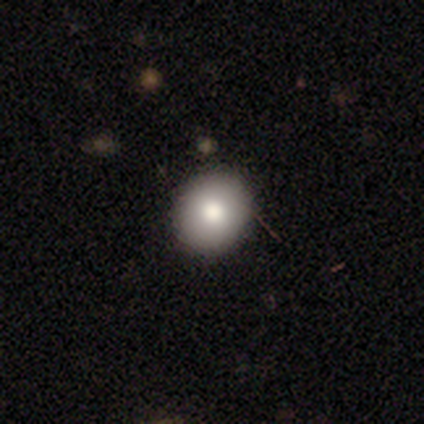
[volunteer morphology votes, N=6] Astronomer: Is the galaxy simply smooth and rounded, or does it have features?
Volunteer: smooth — 67%.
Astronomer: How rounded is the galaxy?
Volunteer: round — 100%.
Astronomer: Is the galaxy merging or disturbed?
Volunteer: none — 83%.